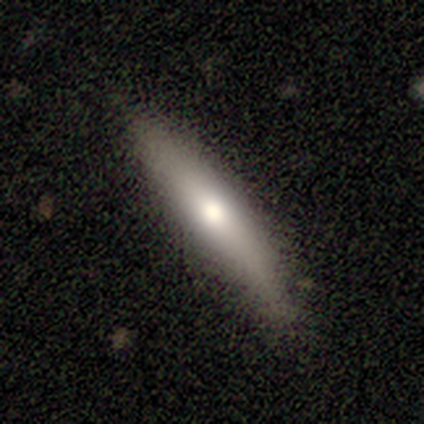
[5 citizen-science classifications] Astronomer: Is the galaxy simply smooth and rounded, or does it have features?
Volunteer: smooth — 60% (runner-up: featured or disk, 40%).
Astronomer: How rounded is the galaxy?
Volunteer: cigar-shaped — 100%.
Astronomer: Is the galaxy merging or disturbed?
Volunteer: none — 100%.